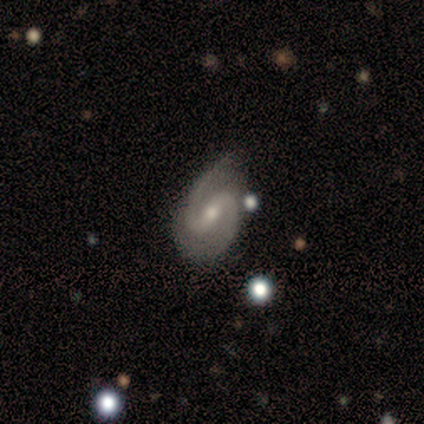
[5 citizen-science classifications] Q: Smooth or featured?
A: featured or disk (100%)
Q: Edge-on disk?
A: no (100%)
Q: Bar?
A: strong (80%); runner-up: weak (20%)
Q: Spiral arms?
A: yes (100%)
Q: Spiral winding?
A: loose (80%); runner-up: medium (20%)
Q: Spiral arm count?
A: 2 (80%); runner-up: can't tell (20%)
Q: Bulge size?
A: small (100%)
Q: Merging?
A: minor disturbance (80%); runner-up: none (20%)